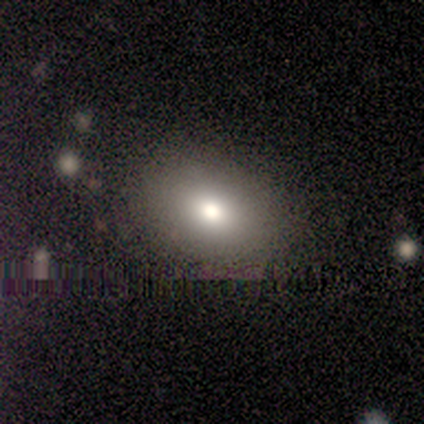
Smooth or featured?
  - smooth: 80% *
  - featured or disk: 20%
  - star or artifact: 0%
How rounded?
  - in between: 75% *
  - round: 25%
  - cigar-shaped: 0%
Merging?
  - none: 80% *
  - minor disturbance: 20%
  - major disturbance: 0%
  - merger: 0%